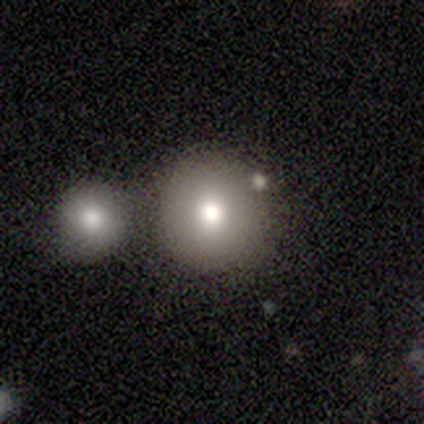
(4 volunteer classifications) smooth_or_featured: smooth (p=0.75) [alt: star or artifact p=0.25]
how_rounded: round (p=1.00)
merging: none (p=0.67) [alt: minor disturbance p=0.33]